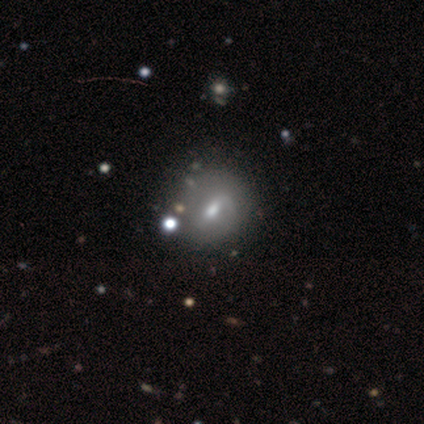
featured or disk 59%, smooth 31%, star or artifact 10%. Down the decision tree: edge-on disk — no (100%); bar — weak (52%); spiral arms — yes (70%); spiral arm count — 1 (69%); spiral winding — loose (69%); bulge size — moderate (83%); merging — none (69%).